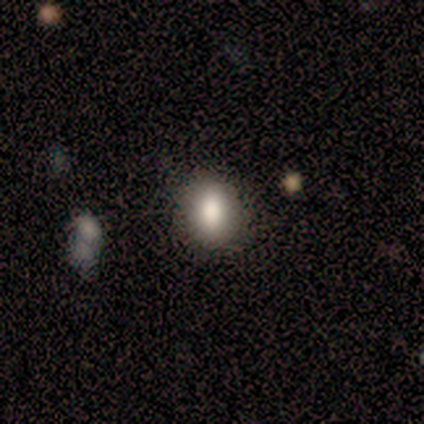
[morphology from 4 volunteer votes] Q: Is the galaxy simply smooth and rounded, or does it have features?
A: smooth — 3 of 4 (75%).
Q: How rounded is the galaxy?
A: in between — 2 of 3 (67%).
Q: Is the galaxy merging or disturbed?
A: none — 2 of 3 (67%).